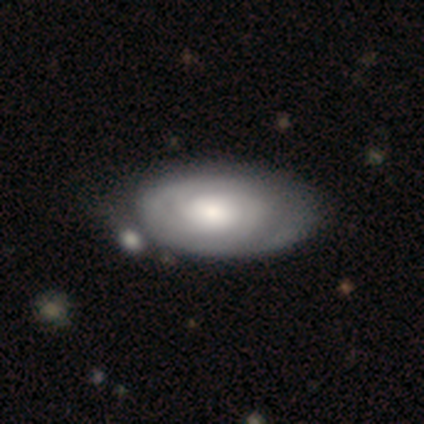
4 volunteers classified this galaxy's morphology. featured or disk 100%, smooth 0%, star or artifact 0%. Down the decision tree: edge-on disk — no (100%); bar — no (100%); spiral arms — yes (75%); spiral arm count — 2 (67%); spiral winding — tight (67%); bulge size — moderate (75%); merging — none (25%, tied with minor disturbance, major disturbance and merger).